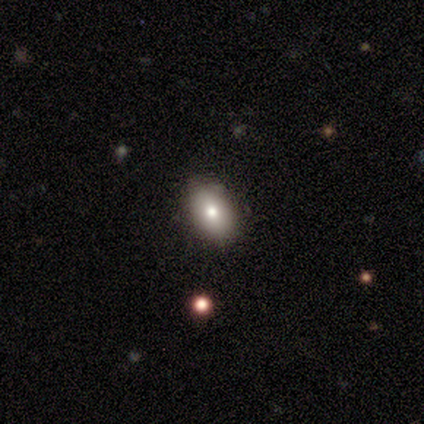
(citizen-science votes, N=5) Consensus on every question: smooth or featured — smooth (100%); how rounded — in between (100%); merging — none (100%).